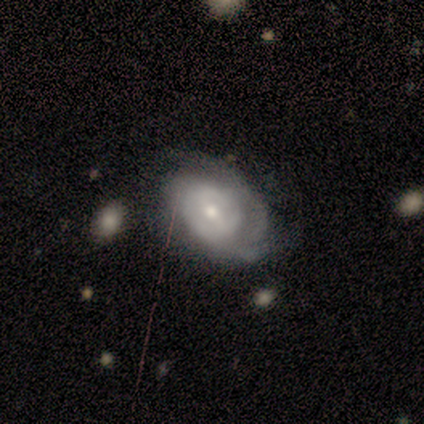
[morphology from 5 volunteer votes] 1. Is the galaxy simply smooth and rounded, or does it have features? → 100% featured or disk, 0% smooth, 0% star or artifact.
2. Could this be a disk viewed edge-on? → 80% no, 20% yes.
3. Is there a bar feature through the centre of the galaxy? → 75% weak, 25% no, 0% strong.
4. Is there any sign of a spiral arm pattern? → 75% yes, 25% no.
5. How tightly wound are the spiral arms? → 67% medium, 33% tight, 0% loose.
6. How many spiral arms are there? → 67% 2, 33% can't tell, 0% 1, 0% 3, 0% 4, 0% more than 4.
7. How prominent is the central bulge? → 75% moderate, 25% large, 0% dominant, 0% small, 0% none.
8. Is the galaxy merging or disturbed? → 60% none, 40% minor disturbance, 0% major disturbance, 0% merger.